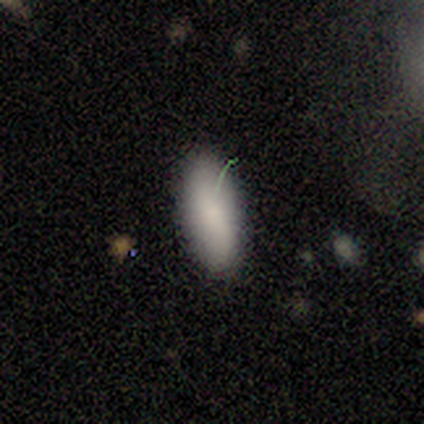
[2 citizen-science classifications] Smooth or featured? smooth (50%, tied with star or artifact)
How rounded? in between (100%)
Merging? none (100%)